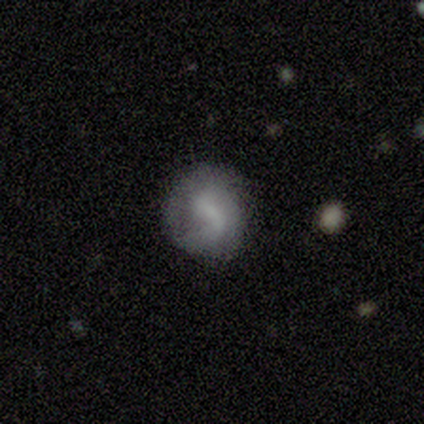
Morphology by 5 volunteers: smooth-or-featured: smooth: 60% | featured or disk: 40% | star or artifact: 0%
  how-rounded: round: 67% | in between: 33% | cigar-shaped: 0%
  merging: none: 60% | minor disturbance: 40% | major disturbance: 0% | merger: 0%